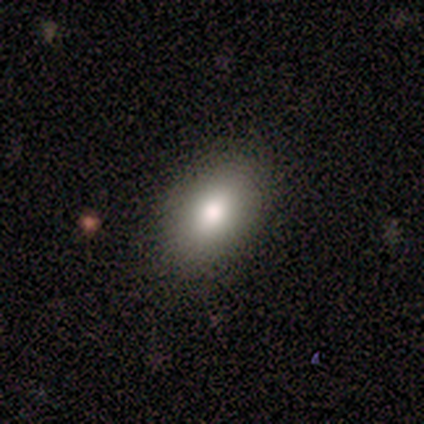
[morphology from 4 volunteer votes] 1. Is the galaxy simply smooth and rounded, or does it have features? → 75% smooth, 25% featured or disk, 0% star or artifact.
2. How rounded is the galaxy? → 100% in between, 0% round, 0% cigar-shaped.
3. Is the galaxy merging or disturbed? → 100% none, 0% minor disturbance, 0% major disturbance, 0% merger.